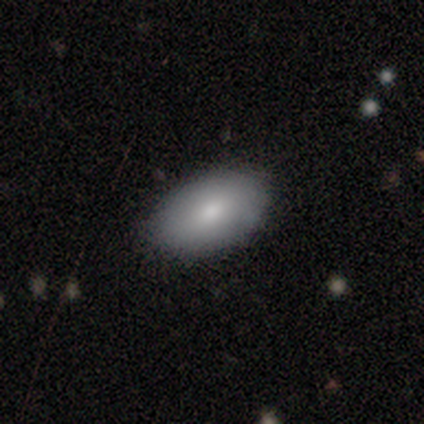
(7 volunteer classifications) Q: Smooth or featured?
A: smooth (71%); runner-up: featured or disk (29%)
Q: How rounded?
A: in between (100%)
Q: Merging?
A: none (100%)